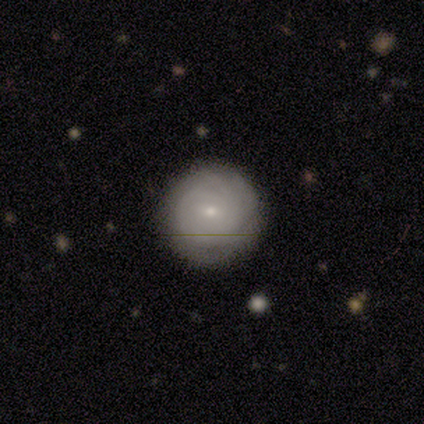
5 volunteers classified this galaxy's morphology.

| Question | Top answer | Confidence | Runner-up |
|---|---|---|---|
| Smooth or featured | featured or disk | 60% | smooth (20%) |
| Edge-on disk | no | 100% | — |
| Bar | no | 67% | weak (33%) |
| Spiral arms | yes | 100% | — |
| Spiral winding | tight | 67% | medium (33%) |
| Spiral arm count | can't tell | 100% | — |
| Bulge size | small | 100% | — |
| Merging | none | 75% | minor disturbance (25%) |